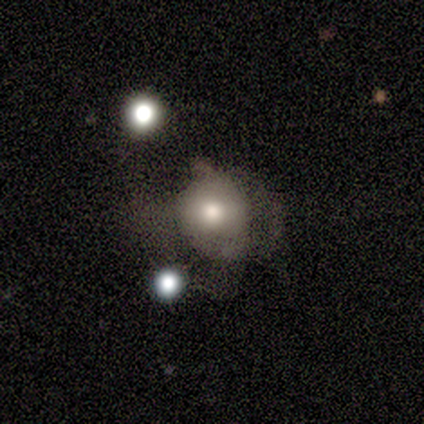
smooth-or-featured: smooth: 80% | featured or disk: 20% | star or artifact: 0%
  how-rounded: round: 75% | in between: 25% | cigar-shaped: 0%
  merging: major disturbance: 60% | none: 20% | minor disturbance: 20% | merger: 0%